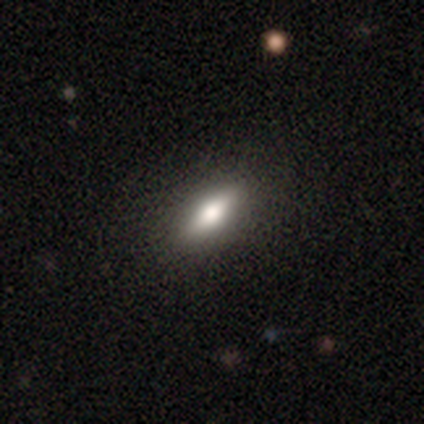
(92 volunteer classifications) smooth-or-featured: smooth: 63% | featured or disk: 34% | star or artifact: 3%
  how-rounded: in between: 53% | cigar-shaped: 43% | round: 3%
  merging: none: 84% | minor disturbance: 10% | major disturbance: 4% | merger: 1%